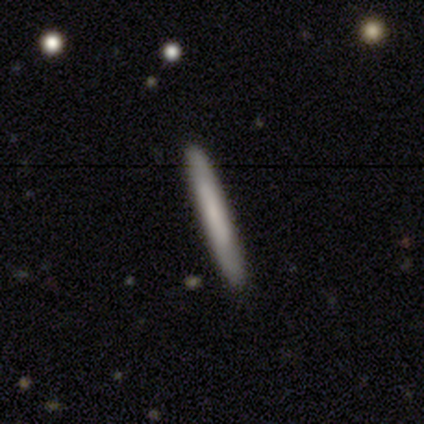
This is likely a smooth galaxy (70%). How rounded: clearly cigar-shaped (100%). Merging: clearly none (100%).